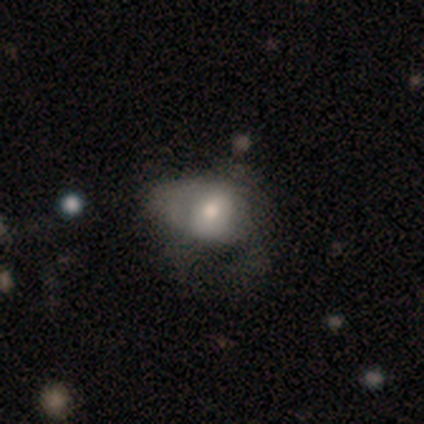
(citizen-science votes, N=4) smooth_or_featured: smooth (p=0.50) [tied with: featured or disk p=0.50]
how_rounded: in between (p=1.00)
merging: none (p=0.50) [alt: minor disturbance p=0.25]